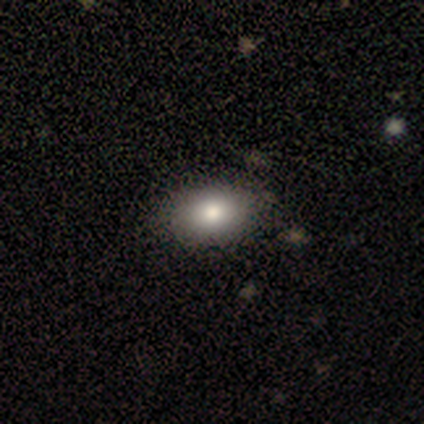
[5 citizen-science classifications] Overall: smooth (100%). How rounded: in between (100%). Merging: none (100%).